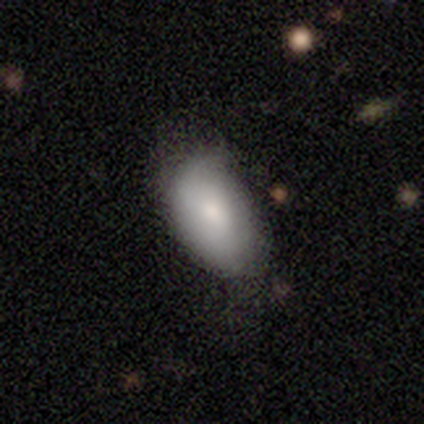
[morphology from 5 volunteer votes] smooth-or-featured: smooth: 100% | featured or disk: 0% | star or artifact: 0%
  how-rounded: in between: 100% | round: 0% | cigar-shaped: 0%
  merging: none: 60% | major disturbance: 40% | minor disturbance: 0% | merger: 0%